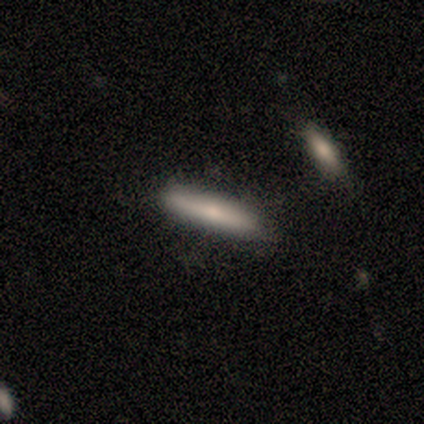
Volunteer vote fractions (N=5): smooth_or_featured: smooth (p=0.60) [alt: featured or disk p=0.40]
how_rounded: cigar-shaped (p=1.00)
merging: none (p=1.00)